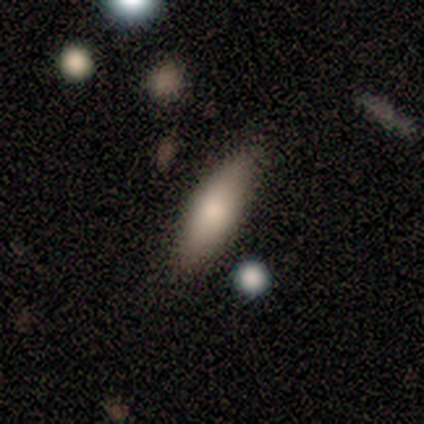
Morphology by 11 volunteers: Q: Smooth or featured?
A: smooth (64%); runner-up: featured or disk (27%)
Q: How rounded?
A: in between (57%); runner-up: cigar-shaped (43%)
Q: Merging?
A: none (90%); runner-up: minor disturbance (10%)